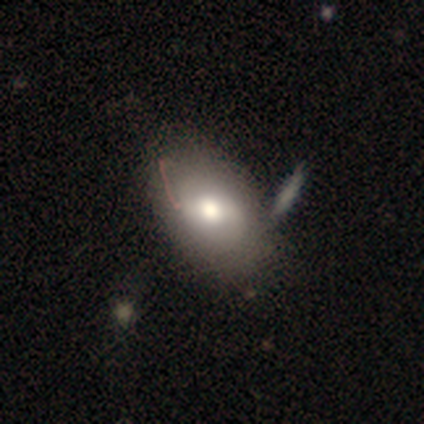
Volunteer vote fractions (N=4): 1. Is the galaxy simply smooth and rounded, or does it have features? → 75% smooth, 25% featured or disk, 0% star or artifact.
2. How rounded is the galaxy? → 67% in between, 33% round, 0% cigar-shaped.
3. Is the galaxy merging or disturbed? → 75% none, 25% merger, 0% minor disturbance, 0% major disturbance.